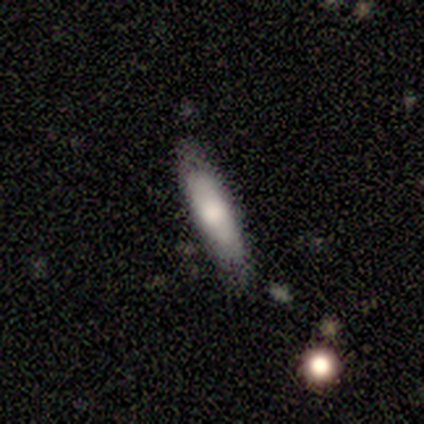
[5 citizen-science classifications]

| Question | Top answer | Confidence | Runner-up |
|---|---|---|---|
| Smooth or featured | smooth | 80% | featured or disk (20%) |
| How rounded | cigar-shaped | 75% | in between (25%) |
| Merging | minor disturbance | 60% | none (40%) |